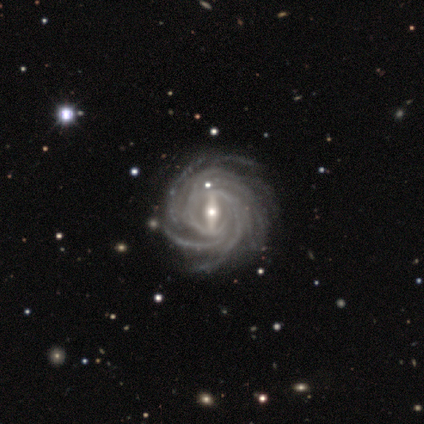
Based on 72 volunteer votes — This appears to be a featured or disk galaxy (97%) with a strong bar (79%), more than 4 (67%) tight (67%) spiral arms (100%) and a moderate central bulge (55%). Merging: none (51%).